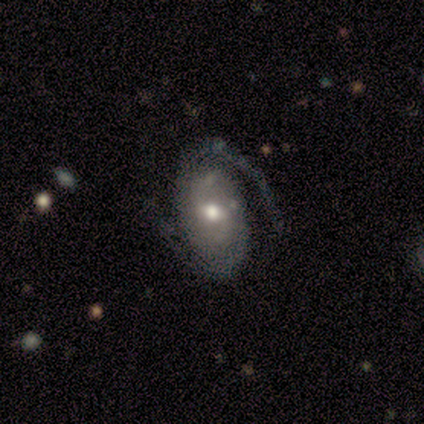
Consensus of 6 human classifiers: featured or disk 100%, smooth 0%, star or artifact 0%. Down the decision tree: edge-on disk — no (100%); bar — weak (67%); spiral arms — yes (83%); spiral arm count — 2 (100%); spiral winding — tight (40%, tied with medium); bulge size — moderate (50%, tied with small); merging — none (67%).